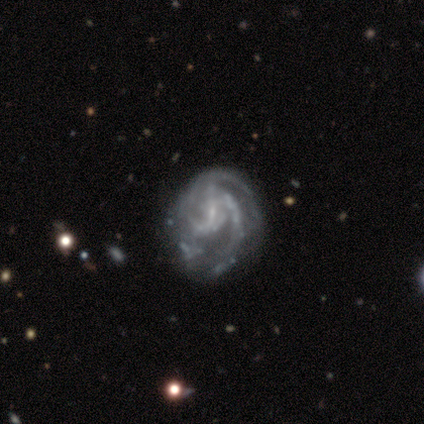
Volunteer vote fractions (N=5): Smooth or featured: featured or disk — 100%
Edge-on disk: no — 100%
Bar: no — 60% (strong — 40%)
Spiral arms: yes — 80% (no — 20%)
Spiral winding: medium — 75% (tight — 25%)
Spiral arm count: 2 — 50% (tied with 3 — 50%)
Bulge size: small — 60% (moderate — 20%)
Merging: none — 40% (tied with minor disturbance — 40%)